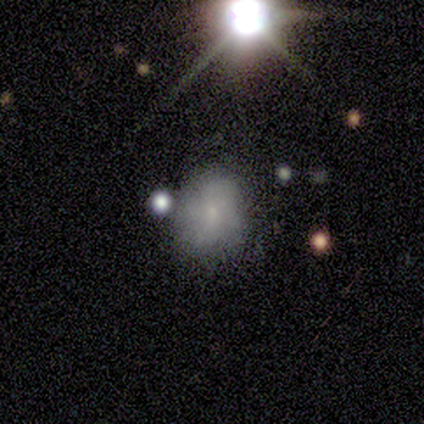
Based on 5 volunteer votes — Q: Smooth or featured?
A: smooth (80%); runner-up: featured or disk (20%)
Q: How rounded?
A: round (50%); tied with: in between (50%)
Q: Merging?
A: none (40%); tied with: minor disturbance (40%)